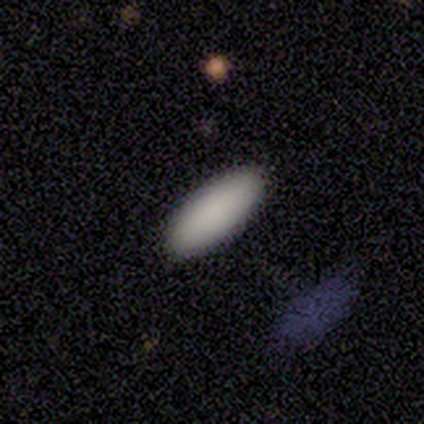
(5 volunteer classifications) smooth 100%, featured or disk 0%, star or artifact 0%. Down the decision tree: how rounded — in between (100%); merging — none (100%).